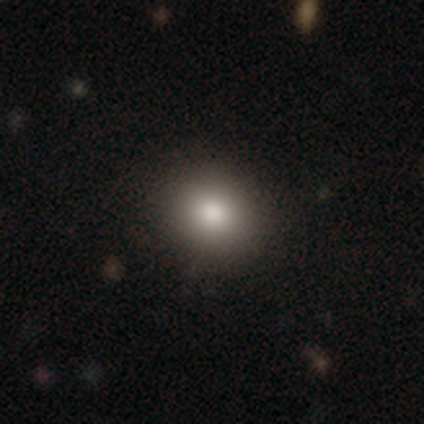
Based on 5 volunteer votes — Overall: smooth (60%; star or artifact 40%). How rounded: round (67%; in between 33%). Merging: none (100%).